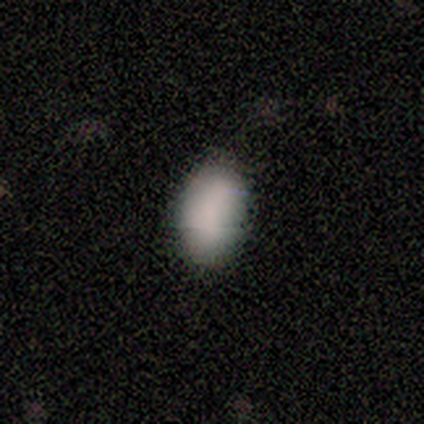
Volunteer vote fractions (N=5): Smooth or featured: smooth — 100%
How rounded: in between — 80% (round — 20%)
Merging: none — 100%